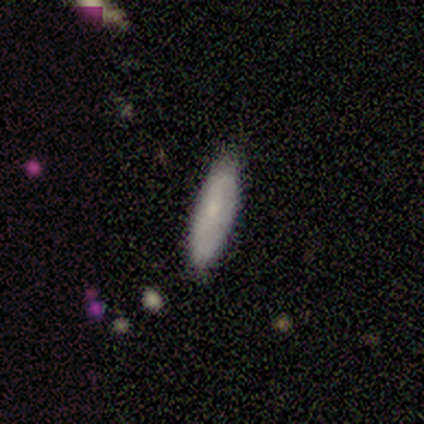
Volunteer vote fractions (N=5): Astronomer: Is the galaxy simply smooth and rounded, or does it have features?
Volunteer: featured or disk — 60% (runner-up: smooth, 40%).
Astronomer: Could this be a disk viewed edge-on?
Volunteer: no — 67%.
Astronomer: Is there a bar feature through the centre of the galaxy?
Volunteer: weak — 50%, tied with no at 50%.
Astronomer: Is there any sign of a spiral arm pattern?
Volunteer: yes — 100%.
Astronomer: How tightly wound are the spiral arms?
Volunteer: loose — 100%.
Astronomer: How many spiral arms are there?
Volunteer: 2 — 50%, tied with can't tell at 50%.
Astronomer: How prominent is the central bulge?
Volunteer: moderate — 100%.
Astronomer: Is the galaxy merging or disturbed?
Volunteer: none — 100%.